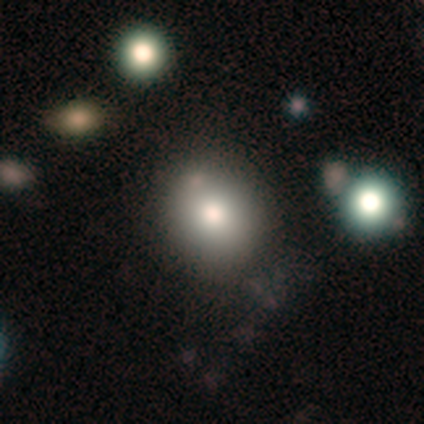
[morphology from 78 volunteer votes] Smooth or featured? smooth (82%)
How rounded? round (72%)
Merging? none (38%)